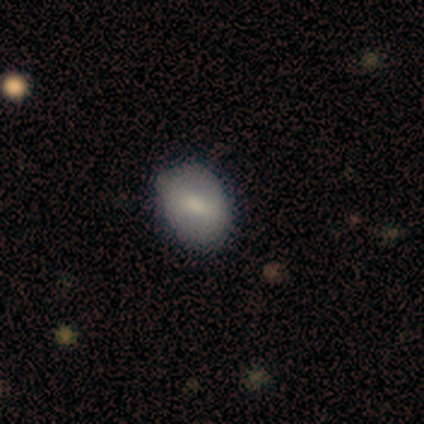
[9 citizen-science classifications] Smooth or featured?
  - smooth: 89% *
  - featured or disk: 11%
  - star or artifact: 0%
How rounded?
  - in between: 75% *
  - round: 25%
  - cigar-shaped: 0%
Merging?
  - none: 89% *
  - minor disturbance: 11%
  - major disturbance: 0%
  - merger: 0%